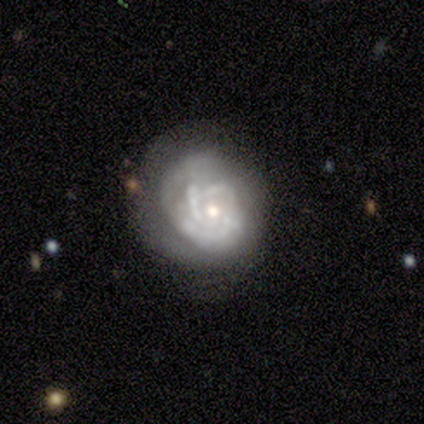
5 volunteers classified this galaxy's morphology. Overall: featured or disk (100%). Edge-on disk: no (100%). Bar: no (80%). Spiral arms: yes (100%). Spiral arm count: can't tell (40%; 1 20%). Spiral winding: tight (100%). Bulge size: moderate (40%, tied with small). Merging: none (60%; minor disturbance 20%).